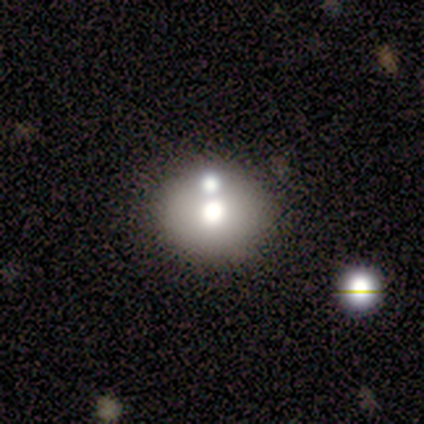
Overall: featured or disk (42%; smooth 38%). Edge-on disk: no (80%). Bar: no (88%). Spiral arms: no (100%). Bulge size: moderate (75%). Merging: none (63%; merger 32%).